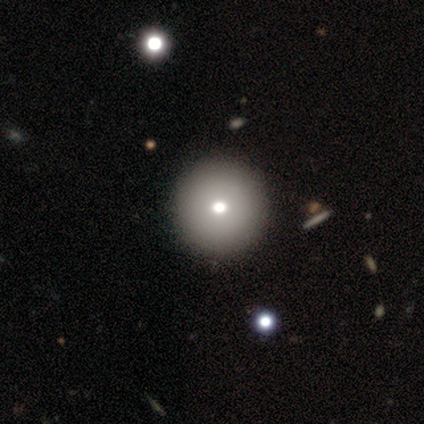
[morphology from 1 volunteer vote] Smooth or featured?
  - smooth: 100% *
  - featured or disk: 0%
  - star or artifact: 0%
How rounded?
  - round: 100% *
  - in between: 0%
  - cigar-shaped: 0%
Merging?
  - none: 100% *
  - minor disturbance: 0%
  - major disturbance: 0%
  - merger: 0%